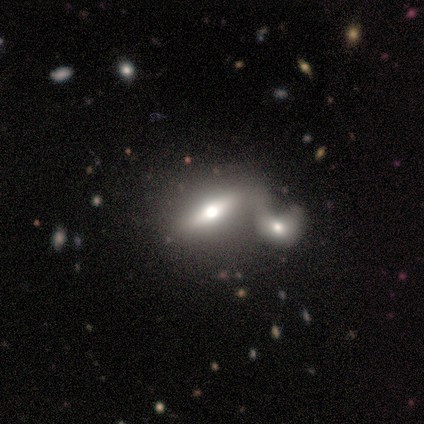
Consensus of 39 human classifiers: Volunteers were most divided on "smooth or featured": featured or disk: 56%, smooth: 31%, star or artifact: 13%. More confident: edge-on bulge — rounded (94%); merging — merger (85%); edge-on disk — yes (82%).